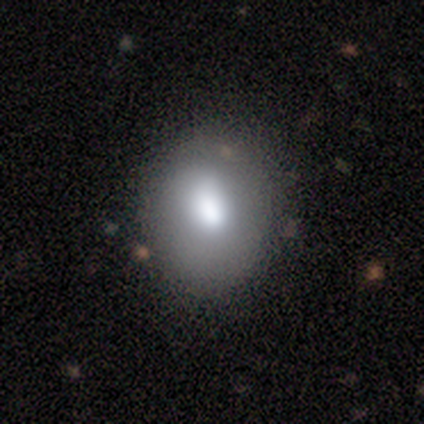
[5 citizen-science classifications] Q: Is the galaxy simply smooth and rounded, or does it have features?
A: smooth — 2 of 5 (40%, tied with featured or disk).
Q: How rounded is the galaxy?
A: round — 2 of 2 (100%).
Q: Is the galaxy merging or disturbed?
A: none — 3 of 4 (75%).